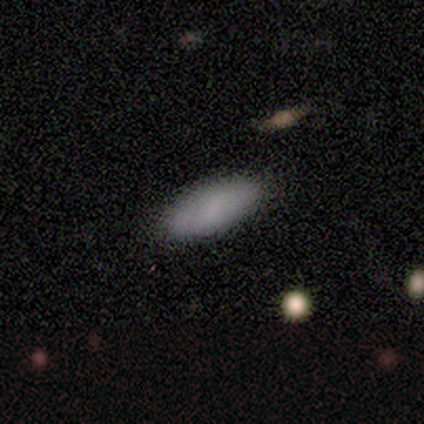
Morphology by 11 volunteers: Smooth or featured? smooth (100%)
How rounded? in between (73%)
Merging? none (100%)